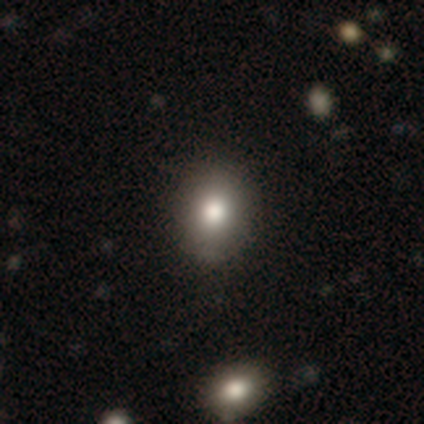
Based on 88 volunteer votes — Smooth or featured: smooth — 75% (star or artifact — 20%)
How rounded: round — 68% (in between — 32%)
Merging: none — 86% (minor disturbance — 9%)